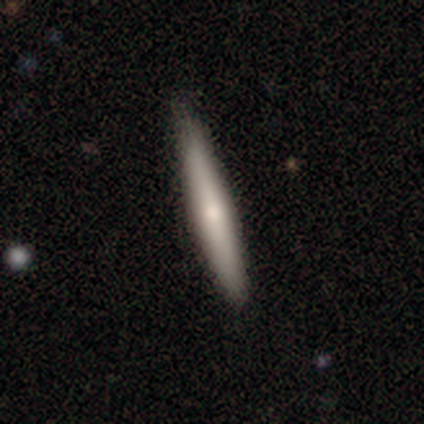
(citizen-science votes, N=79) smooth_or_featured: smooth (p=0.56) [alt: featured or disk p=0.42]
how_rounded: cigar-shaped (p=0.95) [alt: in between p=0.05]
merging: none (p=0.45) [alt: minor disturbance p=0.04]